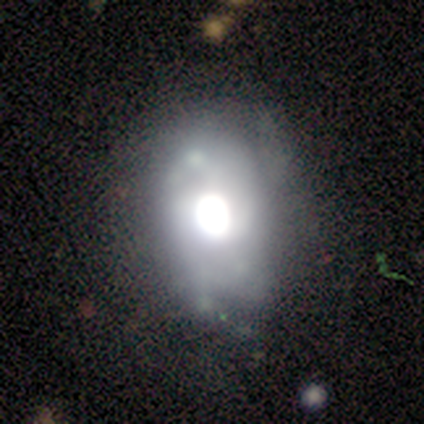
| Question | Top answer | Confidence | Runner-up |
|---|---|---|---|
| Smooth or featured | featured or disk | 83% | star or artifact (17%) |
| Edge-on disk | no | 80% | yes (20%) |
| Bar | no | 100% | — |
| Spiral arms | no | 75% | yes (25%) |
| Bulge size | large | 75% | moderate (25%) |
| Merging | none | 60% | minor disturbance (40%) |